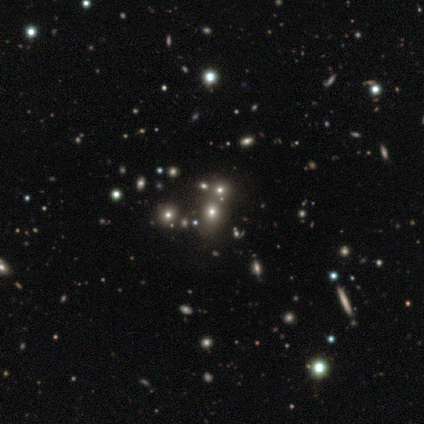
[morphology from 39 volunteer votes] Smooth or featured?
  - star or artifact: 44% *
  - smooth: 38%
  - featured or disk: 18%